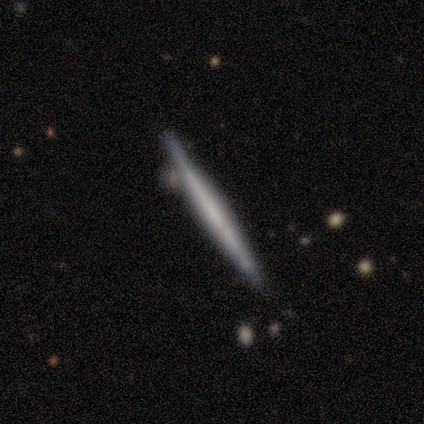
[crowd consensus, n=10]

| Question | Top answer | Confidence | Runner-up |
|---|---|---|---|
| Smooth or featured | smooth | 70% | featured or disk (30%) |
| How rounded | cigar-shaped | 100% | — |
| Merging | none | 100% | — |